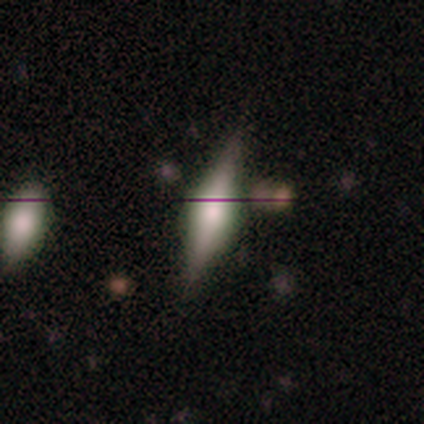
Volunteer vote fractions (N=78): smooth_or_featured: featured or disk (p=0.59) [alt: smooth p=0.22]
disk_edge_on: yes (p=0.98) [alt: no p=0.02]
edge_on_bulge: rounded (p=0.71) [alt: boxy p=0.29]
merging: none (p=0.43) [alt: minor disturbance p=0.08]